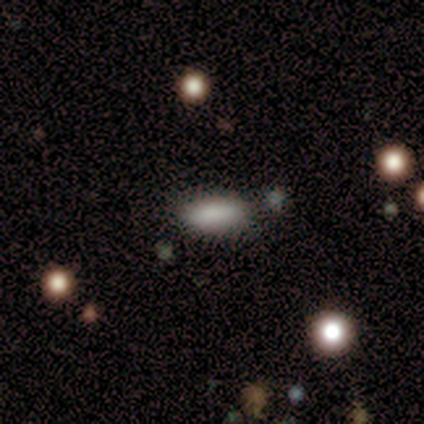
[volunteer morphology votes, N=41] smooth 90%, star or artifact 10%, featured or disk 0%. Down the decision tree: how rounded — in between (76%); merging — none (81%).